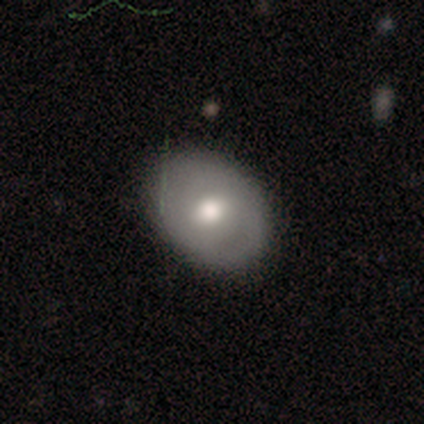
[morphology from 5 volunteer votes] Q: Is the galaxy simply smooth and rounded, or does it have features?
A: featured or disk — 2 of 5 (40%, tied with star or artifact).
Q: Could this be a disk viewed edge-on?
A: no — 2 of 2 (100%).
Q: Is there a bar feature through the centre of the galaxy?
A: weak — 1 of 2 (50%, tied with no).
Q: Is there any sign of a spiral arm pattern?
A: yes — 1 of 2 (50%, tied with no).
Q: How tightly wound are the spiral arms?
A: medium — 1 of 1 (100%).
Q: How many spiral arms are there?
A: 2 — 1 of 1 (100%).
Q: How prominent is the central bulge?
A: moderate — 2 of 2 (100%).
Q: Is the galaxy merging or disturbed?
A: none — 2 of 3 (67%).